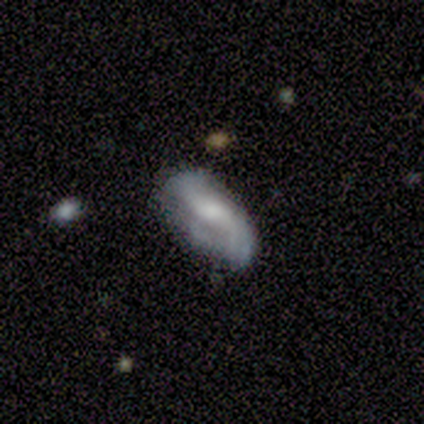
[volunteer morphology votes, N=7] smooth_or_featured: featured or disk (p=0.57) [alt: smooth p=0.43]
disk_edge_on: no (p=1.00)
bar: weak (p=0.75) [alt: no p=0.25]
has_spiral_arms: yes (p=0.75) [alt: no p=0.25]
spiral_winding: loose (p=1.00)
spiral_arm_count: 2 (p=0.67) [alt: can't tell p=0.33]
bulge_size: moderate (p=0.75) [alt: large p=0.25]
merging: none (p=0.43) [tied with: minor disturbance p=0.43]